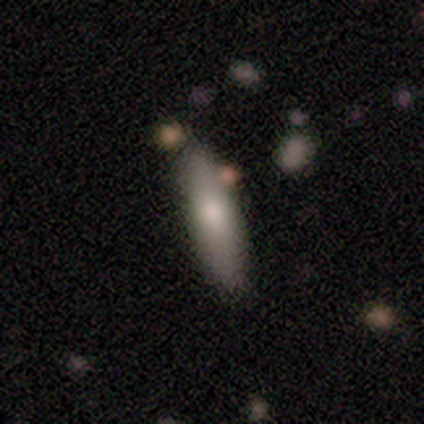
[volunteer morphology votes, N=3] Smooth or featured? 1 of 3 (33%, tied with featured or disk and star or artifact) said smooth. How rounded? 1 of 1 (100%) said cigar-shaped. Merging? 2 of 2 (100%) said none.